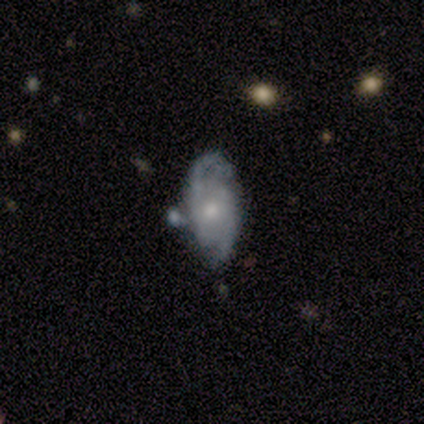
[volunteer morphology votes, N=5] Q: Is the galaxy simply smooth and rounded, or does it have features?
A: featured or disk — 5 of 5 (100%).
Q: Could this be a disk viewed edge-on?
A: no — 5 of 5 (100%).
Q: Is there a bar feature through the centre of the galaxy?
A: no — 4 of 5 (80%).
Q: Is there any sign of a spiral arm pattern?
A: yes — 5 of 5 (100%).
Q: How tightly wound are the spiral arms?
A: medium — 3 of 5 (60%).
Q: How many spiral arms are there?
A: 2 — 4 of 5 (80%).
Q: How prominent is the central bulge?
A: small — 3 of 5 (60%).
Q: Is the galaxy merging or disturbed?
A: none — 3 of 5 (60%).